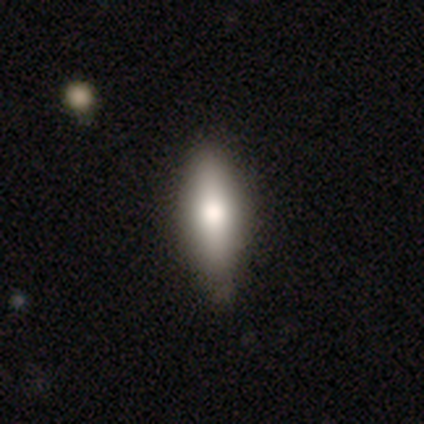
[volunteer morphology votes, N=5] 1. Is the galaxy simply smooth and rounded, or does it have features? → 60% smooth, 40% featured or disk, 0% star or artifact.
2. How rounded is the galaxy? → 67% in between, 33% round, 0% cigar-shaped.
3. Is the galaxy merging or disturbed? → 60% none, 20% minor disturbance, 20% major disturbance, 0% merger.